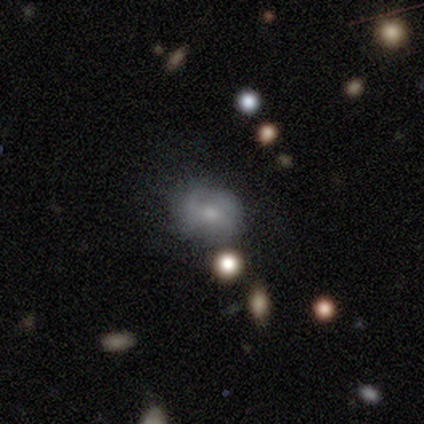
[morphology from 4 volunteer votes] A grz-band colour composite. It shows a smooth galaxy with no disk features (50%, tied with featured or disk) that is in between round and cigar-shaped (100%). Merging: none (50%).